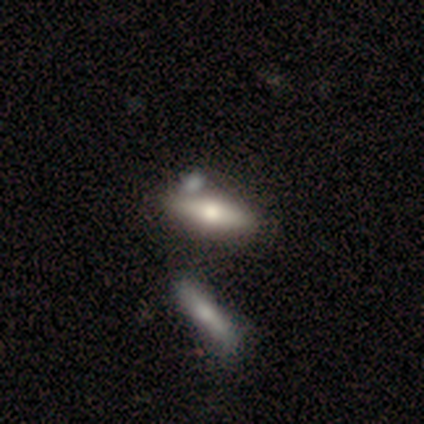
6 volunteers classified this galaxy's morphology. Smooth or featured? 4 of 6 (67%) said smooth. How rounded? 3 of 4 (75%) said in between. Merging? 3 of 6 (50%) said none.